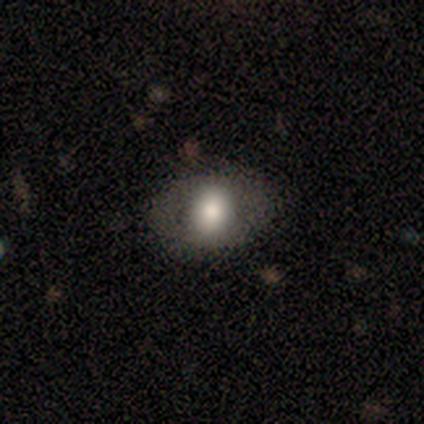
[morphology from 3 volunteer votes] Overall: smooth (67%; featured or disk 33%). How rounded: in between (100%). Merging: none (100%).